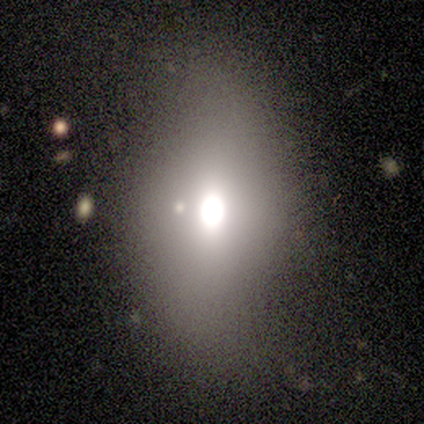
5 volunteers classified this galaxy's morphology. Smooth or featured? 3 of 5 (60%) said smooth. How rounded? 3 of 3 (100%) said in between. Merging? 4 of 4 (100%) said none.